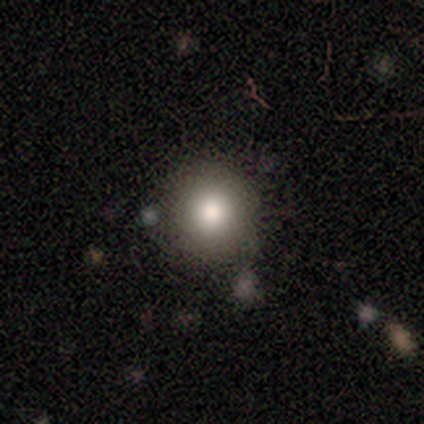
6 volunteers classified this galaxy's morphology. type=smooth (83%); roundness=round (100%); merging=none (83%).